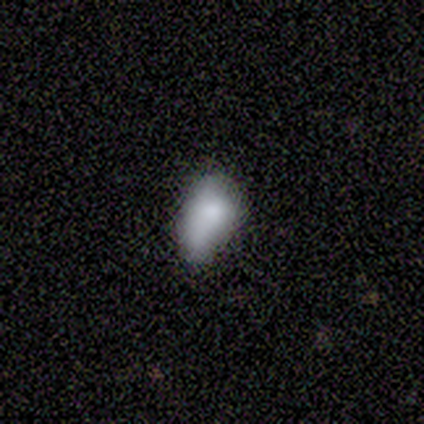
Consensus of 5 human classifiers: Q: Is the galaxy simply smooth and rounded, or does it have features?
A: smooth — 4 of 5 (80%).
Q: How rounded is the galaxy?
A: in between — 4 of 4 (100%).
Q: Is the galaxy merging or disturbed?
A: none — 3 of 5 (60%).